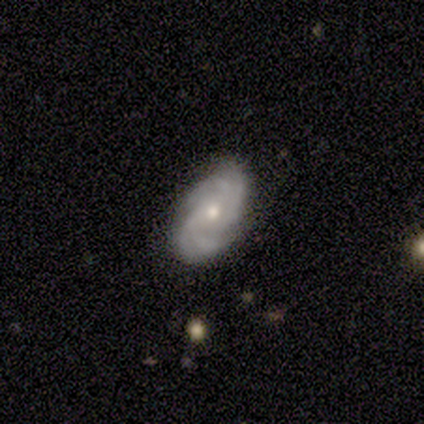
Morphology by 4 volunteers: featured or disk 75%, smooth 25%, star or artifact 0%. Down the decision tree: edge-on disk — no (100%); bar — no (67%); spiral arms — yes (100%); spiral arm count — 4 (67%); spiral winding — tight (100%); bulge size — moderate (67%); merging — none (100%).